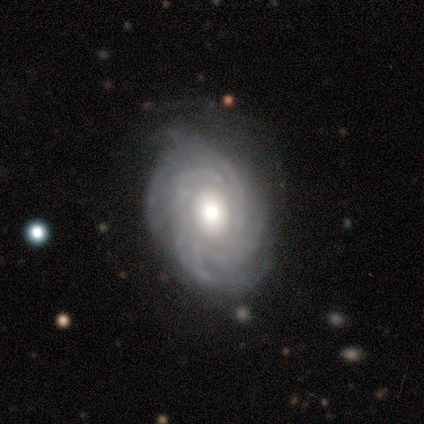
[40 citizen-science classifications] Smooth or featured?
  - featured or disk: 88% *
  - smooth: 10%
  - star or artifact: 2%
Edge-on disk?
  - no: 100% *
  - yes: 0%
Bar?
  - no: 71% *
  - weak: 23%
  - strong: 6%
Spiral arms?
  - yes: 97% *
  - no: 3%
Spiral winding?
  - tight: 62% *
  - medium: 26%
  - loose: 12%
Spiral arm count?
  - can't tell: 44% *
  - 4: 24%
  - more than 4: 24%
  - 2: 6%
  - 3: 3%
  - 1: 0%
Bulge size?
  - moderate: 57% *
  - large: 29%
  - dominant: 14%
  - small: 0%
  - none: 0%
Merging?
  - none: 79% *
  - minor disturbance: 21%
  - major disturbance: 0%
  - merger: 0%